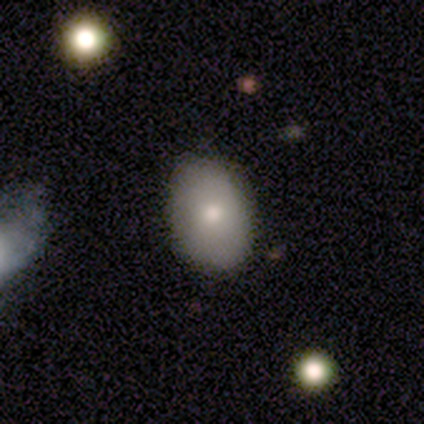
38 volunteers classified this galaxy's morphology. type=smooth (87%); roundness=in between (85%); merging=none (86%).